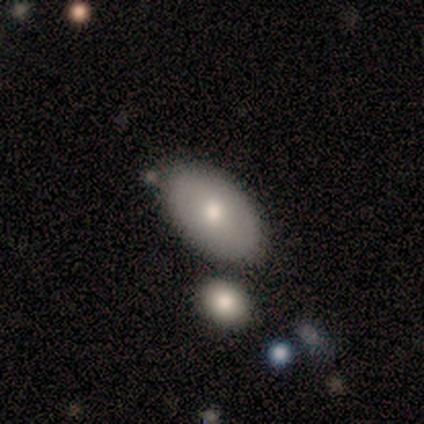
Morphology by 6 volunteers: type=smooth (33%, tied with featured or disk and star or artifact); roundness=in between (100%); merging=none (100%).